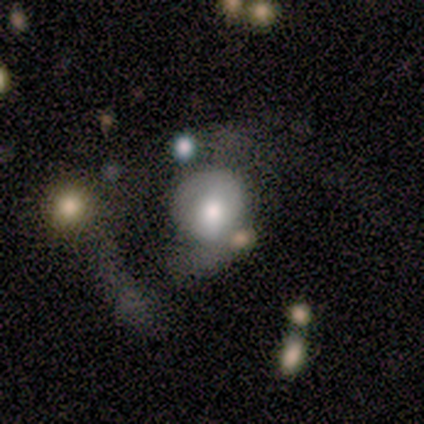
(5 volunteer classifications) Q: Smooth or featured?
A: smooth (80%); runner-up: featured or disk (20%)
Q: How rounded?
A: round (75%); runner-up: in between (25%)
Q: Merging?
A: none (60%); runner-up: major disturbance (20%)